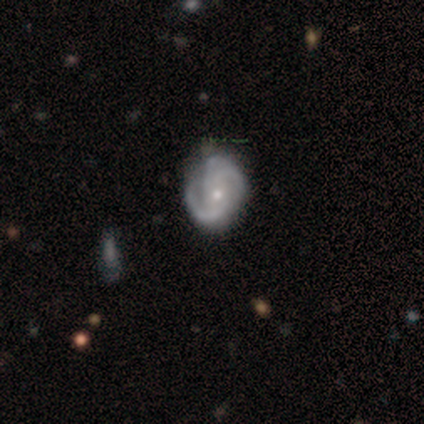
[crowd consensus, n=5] Smooth or featured? 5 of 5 (100%) said featured or disk. Edge-on disk? 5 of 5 (100%) said no. Bar? 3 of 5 (60%) said no. Spiral arms? 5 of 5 (100%) said yes. Spiral winding? 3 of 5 (60%) said medium. Spiral arm count? 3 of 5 (60%) said 2. Bulge size? 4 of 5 (80%) said small. Merging? 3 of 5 (60%) said none.